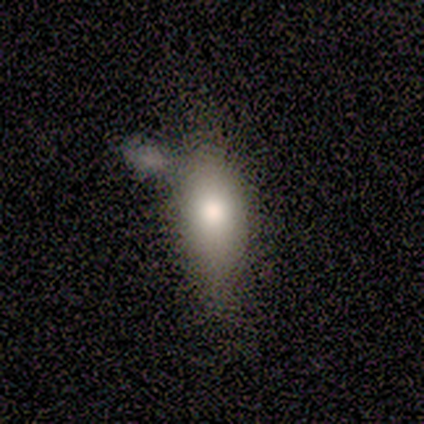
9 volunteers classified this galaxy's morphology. smooth-or-featured: smooth: 67% | featured or disk: 22% | star or artifact: 11%
  how-rounded: in between: 67% | cigar-shaped: 33% | round: 0%
  merging: minor disturbance: 38% (tied) | major disturbance: 38% (tied) | none: 25% | merger: 0%